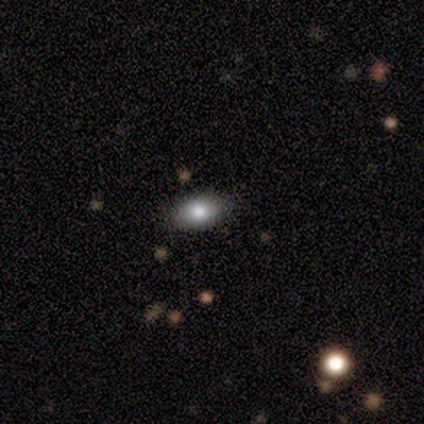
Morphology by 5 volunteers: Q: Smooth or featured?
A: smooth (60%); runner-up: featured or disk (20%)
Q: How rounded?
A: in between (67%); runner-up: round (33%)
Q: Merging?
A: none (100%)